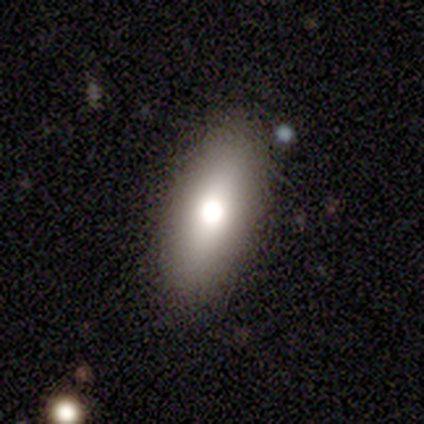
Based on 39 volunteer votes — Q: Smooth or featured?
A: smooth (69%); runner-up: featured or disk (26%)
Q: How rounded?
A: in between (70%); runner-up: cigar-shaped (26%)
Q: Merging?
A: none (89%); runner-up: minor disturbance (11%)